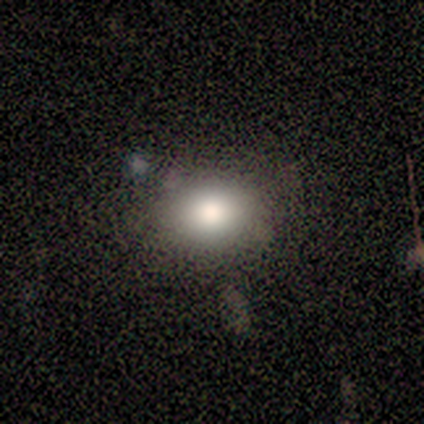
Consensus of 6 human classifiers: This is clearly a smooth galaxy (83%). How rounded: clearly in between (100%). Merging: clearly none (83%).